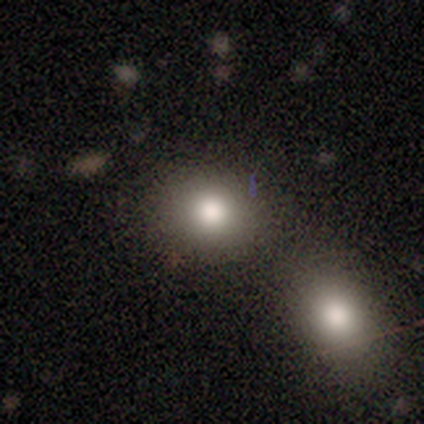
Smooth or featured? 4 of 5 (80%) said smooth. How rounded? 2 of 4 (50%, tied with in between) said round. Merging? 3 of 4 (75%) said none.